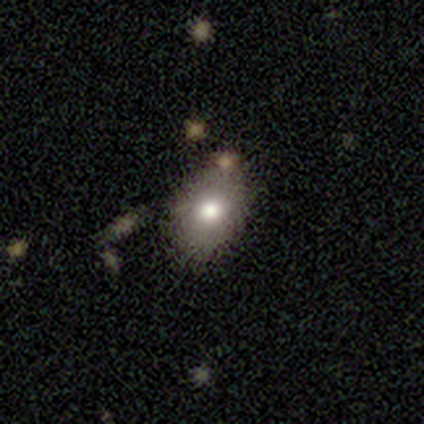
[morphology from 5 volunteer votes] A smooth galaxy with no disk features (100%) that is in between round and cigar-shaped (100%). Merging: none (100%).